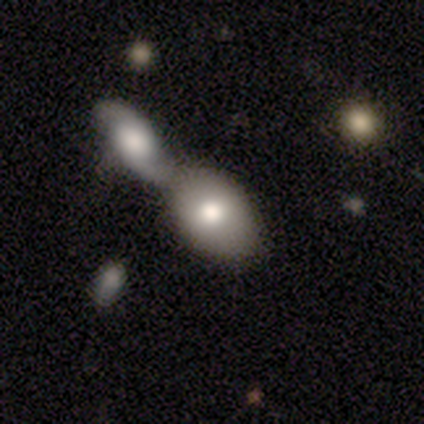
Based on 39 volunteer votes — smooth_or_featured: smooth (p=0.87) [alt: featured or disk p=0.10]
how_rounded: in between (p=0.94) [alt: round p=0.03]
merging: merger (p=0.71) [alt: none p=0.24]